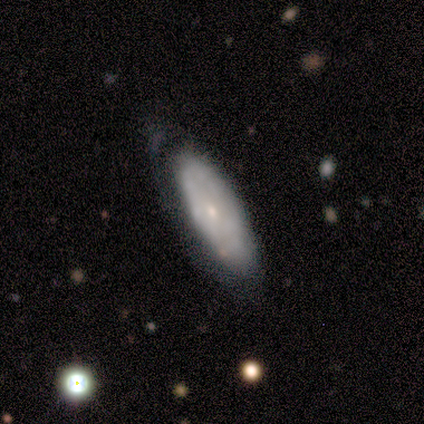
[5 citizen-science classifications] A featured or disk galaxy (60%) with no bar (100%), no spiral arms (100%) and a moderate central bulge (50%, tied with small). Merging: none (60%).